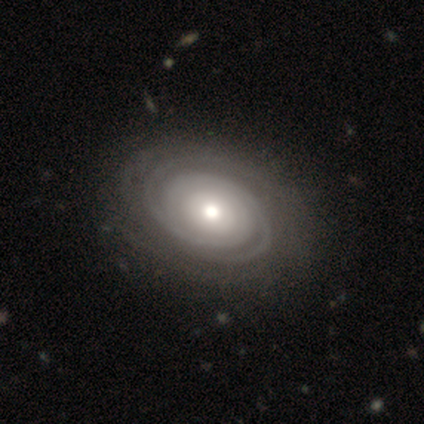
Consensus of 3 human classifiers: Q: Smooth or featured?
A: featured or disk (100%)
Q: Edge-on disk?
A: no (100%)
Q: Bar?
A: strong (67%); runner-up: no (33%)
Q: Spiral arms?
A: yes (100%)
Q: Spiral winding?
A: tight (100%)
Q: Spiral arm count?
A: 4 (67%); runner-up: 2 (33%)
Q: Bulge size?
A: small (67%); runner-up: moderate (33%)
Q: Merging?
A: minor disturbance (67%); runner-up: none (33%)